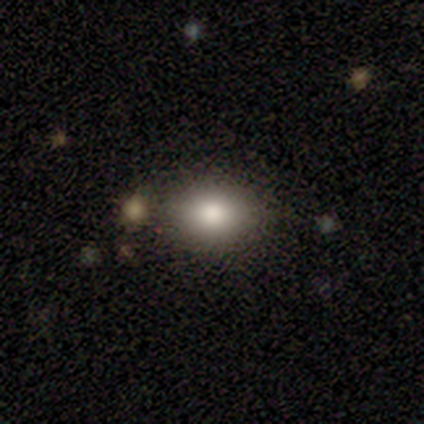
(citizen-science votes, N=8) Smooth or featured? 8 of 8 (100%) said smooth. How rounded? 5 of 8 (62%) said in between. Merging? 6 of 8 (75%) said none.